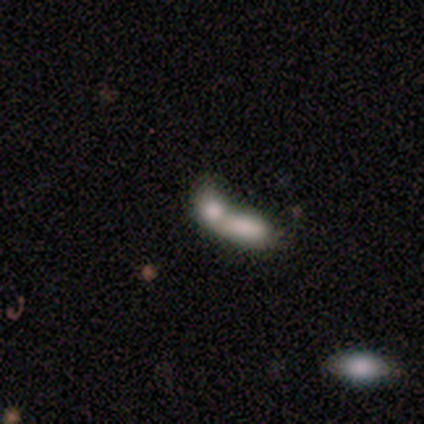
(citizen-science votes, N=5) A smooth galaxy with no disk features (80%) that is in between round and cigar-shaped (100%). Merging: merger (100%).